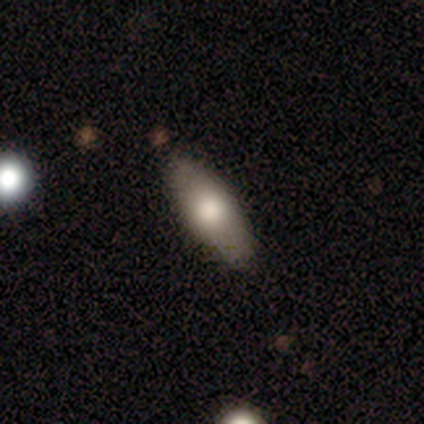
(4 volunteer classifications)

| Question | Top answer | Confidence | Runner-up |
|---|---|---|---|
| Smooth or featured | smooth | 75% | featured or disk (25%) |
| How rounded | in between | 67% | cigar-shaped (33%) |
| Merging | none | 75% | minor disturbance (25%) |